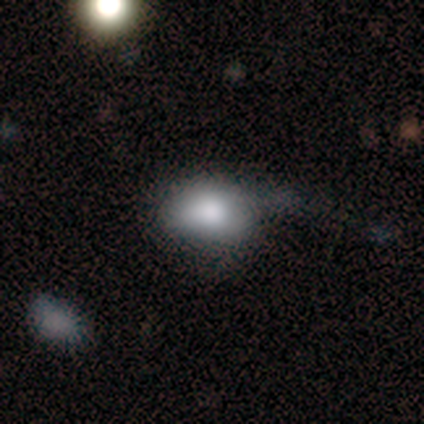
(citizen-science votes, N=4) smooth_or_featured: smooth (p=0.75) [alt: featured or disk p=0.25]
how_rounded: in between (p=0.67) [alt: round p=0.33]
merging: major disturbance (p=0.50) [alt: none p=0.25]